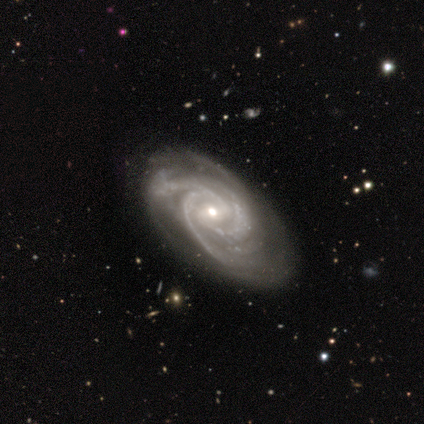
A featured or disk galaxy (100%) with a weak bar (40%, tied with no), 4 (60%) tight (60%) spiral arms (100%) and a small central bulge (80%). Merging: none (67%).